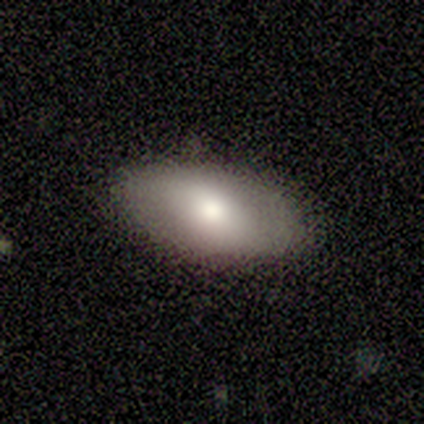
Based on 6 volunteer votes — Volunteers were most divided on "how rounded": in between: 83%, round: 17%, cigar-shaped: 0%. More confident: smooth or featured — smooth (100%); merging — none (83%).